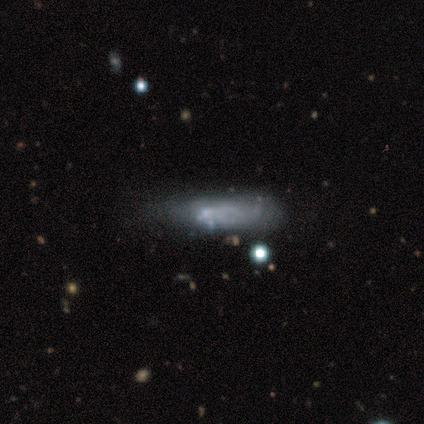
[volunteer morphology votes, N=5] A smooth galaxy with no disk features (80%) that is in between round and cigar-shaped (75%).

Vote fractions:
- Smooth or featured? smooth: 80% / featured or disk: 20% / star or artifact: 0%
- How rounded? in between: 75% / cigar-shaped: 25% / round: 0%
- Merging? none: 40% (tied) / minor disturbance: 40% (tied) / major disturbance: 20% / merger: 0%